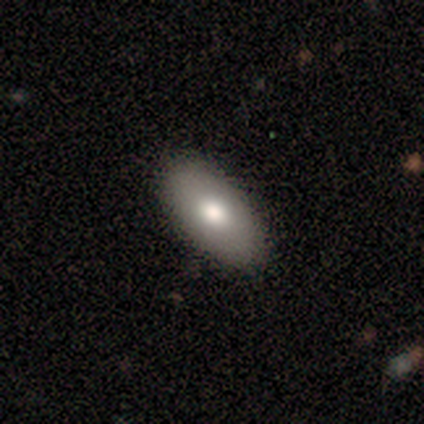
Overall: smooth (80%). How rounded: in between (100%). Merging: none (100%).